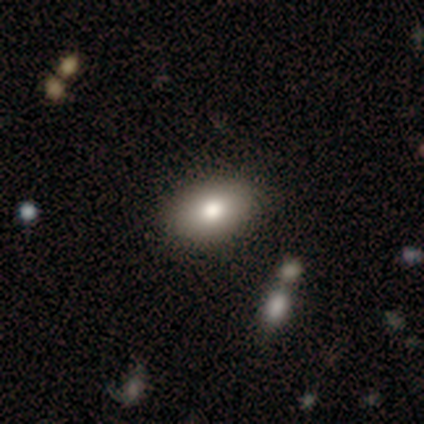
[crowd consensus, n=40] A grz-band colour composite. It shows a smooth galaxy with no disk features (72%) that is in between round and cigar-shaped (90%). Merging: none (69%).